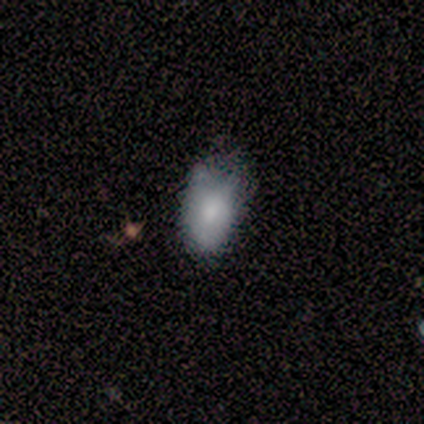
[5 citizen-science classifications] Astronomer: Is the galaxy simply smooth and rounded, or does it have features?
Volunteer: smooth — 80%.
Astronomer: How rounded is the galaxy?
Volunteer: in between — 75%.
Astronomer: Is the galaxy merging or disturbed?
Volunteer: minor disturbance — 80%.